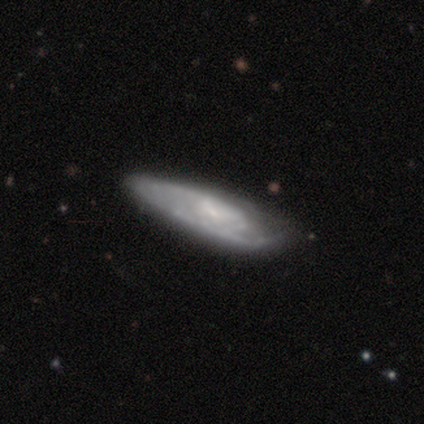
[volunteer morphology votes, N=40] smooth_or_featured: featured or disk (p=0.53) [alt: smooth p=0.47]
disk_edge_on: no (p=0.67) [alt: yes p=0.33]
bar: no (p=0.71) [alt: weak p=0.29]
has_spiral_arms: yes (p=0.86) [alt: no p=0.14]
spiral_winding: tight (p=0.67) [alt: medium p=0.25]
spiral_arm_count: can't tell (p=0.58) [alt: 1 p=0.17]
bulge_size: small (p=0.43) [alt: moderate p=0.29]
merging: none (p=0.50) [alt: minor disturbance p=0.40]